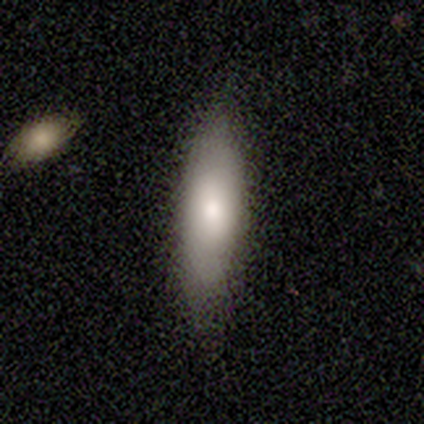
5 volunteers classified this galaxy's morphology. Volunteers were most divided on "how rounded" (2-way tie): in between: 50%, cigar-shaped: 50%, round: 0%. More confident: merging — none (100%); smooth or featured — smooth (80%).